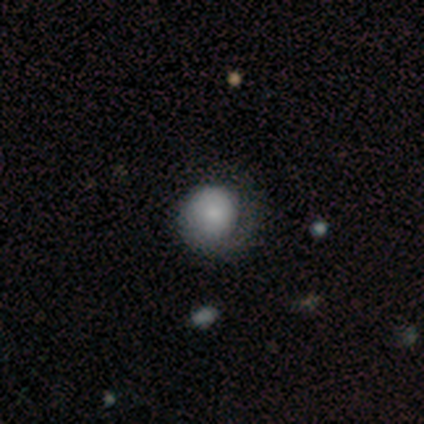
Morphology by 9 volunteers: A smooth galaxy with no disk features (56%) that is round (80%).

Vote fractions:
- Smooth or featured? smooth: 56% / featured or disk: 44% / star or artifact: 0%
- How rounded? round: 80% / in between: 20% / cigar-shaped: 0%
- Merging? none: 78% / minor disturbance: 22% / major disturbance: 0% / merger: 0%